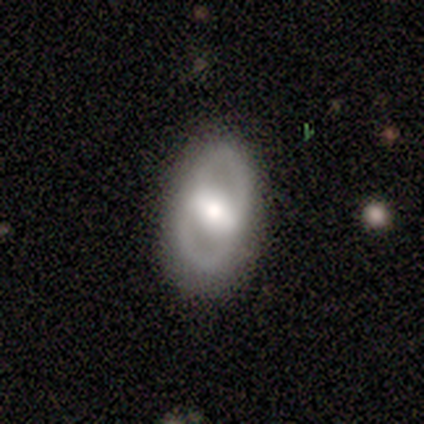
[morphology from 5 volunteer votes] Overall: featured or disk (80%). Edge-on disk: no (100%). Bar: no (50%; strong 25%). Spiral arms: no (75%). Bulge size: moderate (75%). Merging: none (80%).